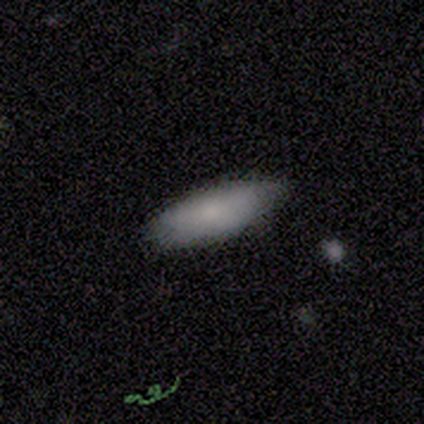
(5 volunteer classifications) Smooth or featured?
  - smooth: 80% *
  - featured or disk: 20%
  - star or artifact: 0%
How rounded?
  - cigar-shaped: 75% *
  - in between: 25%
  - round: 0%
Merging?
  - none: 80% *
  - major disturbance: 20%
  - minor disturbance: 0%
  - merger: 0%